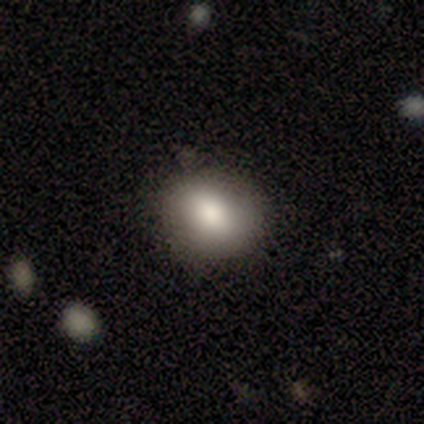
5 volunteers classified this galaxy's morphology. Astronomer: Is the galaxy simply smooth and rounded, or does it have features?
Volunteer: smooth — 100%.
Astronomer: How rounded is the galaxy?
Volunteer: round — 60% (runner-up: in between, 40%).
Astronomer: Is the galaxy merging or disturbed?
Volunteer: none — 80%.